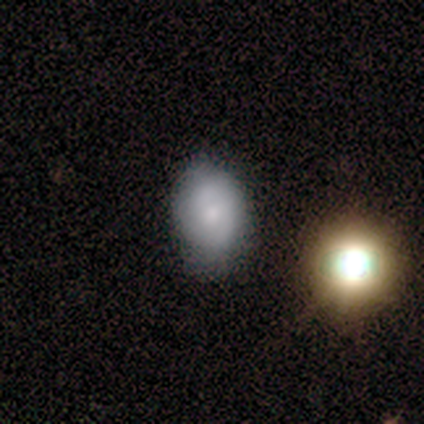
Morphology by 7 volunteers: smooth 43% (tied), featured or disk 43% (tied), star or artifact 14%. Down the decision tree: how rounded — round (67%); merging — none (100%).